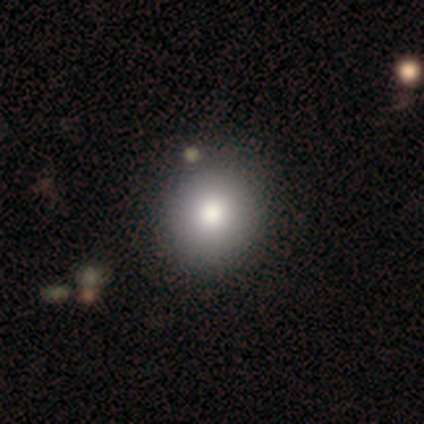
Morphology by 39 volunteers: smooth-or-featured: smooth: 77% | featured or disk: 15% | star or artifact: 8%
  how-rounded: round: 87% | in between: 13% | cigar-shaped: 0%
  merging: none: 72% | merger: 3% | minor disturbance: 0% | major disturbance: 0%